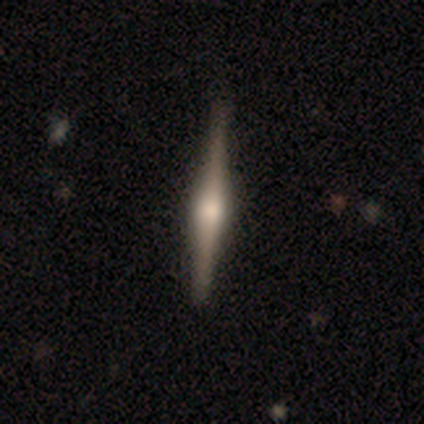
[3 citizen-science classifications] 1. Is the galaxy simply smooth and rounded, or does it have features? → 67% featured or disk, 33% smooth, 0% star or artifact.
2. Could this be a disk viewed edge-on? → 100% yes, 0% no.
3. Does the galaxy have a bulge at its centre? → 100% rounded, 0% boxy, 0% none.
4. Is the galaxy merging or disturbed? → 100% none, 0% minor disturbance, 0% major disturbance, 0% merger.